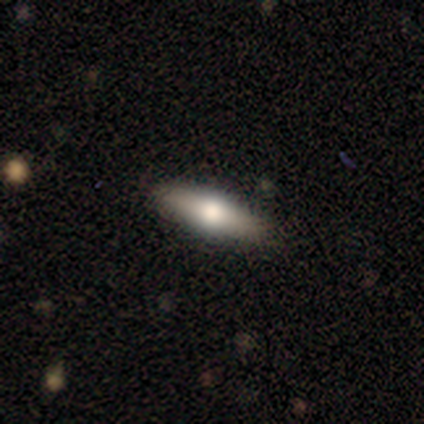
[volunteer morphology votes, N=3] A smooth galaxy with no disk features (67%) that is cigar-shaped (100%). Merging: none (100%).